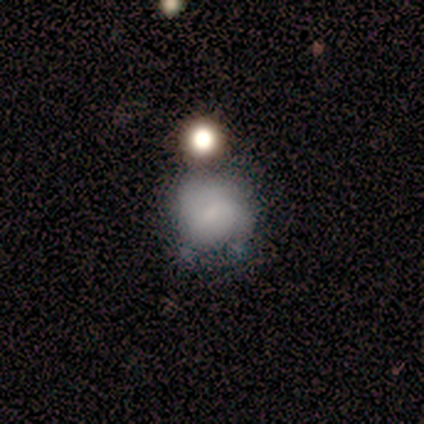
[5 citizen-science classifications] A smooth galaxy with no disk features (60%) that is in between round and cigar-shaped (67%). Merging: major disturbance (67%).